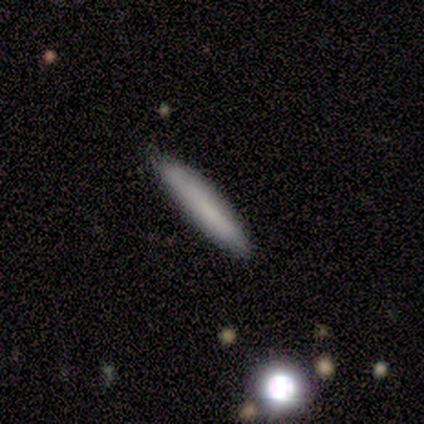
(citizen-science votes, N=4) A smooth galaxy with no disk features (75%) that is cigar-shaped (100%). Merging: none (100%).